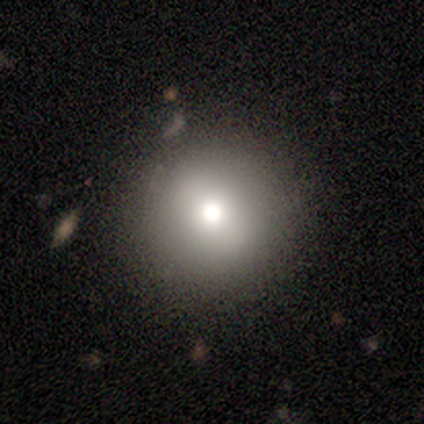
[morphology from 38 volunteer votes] A smooth galaxy with no disk features (61%) that is round (96%).

Vote fractions:
- Smooth or featured? smooth: 61% / featured or disk: 26% / star or artifact: 13%
- How rounded? round: 96% / in between: 4% / cigar-shaped: 0%
- Merging? none: 82% / minor disturbance: 15% / merger: 3% / major disturbance: 0%